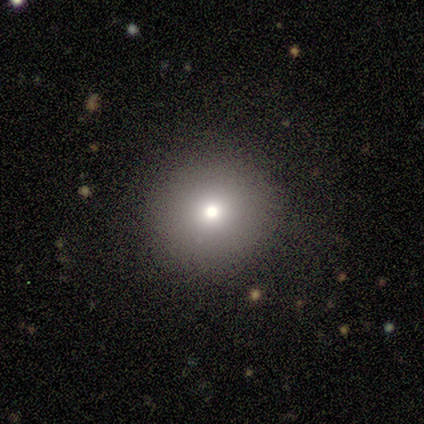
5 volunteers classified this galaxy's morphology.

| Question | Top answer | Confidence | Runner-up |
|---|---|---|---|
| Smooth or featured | smooth | 80% | featured or disk (20%) |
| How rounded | round | 100% | — |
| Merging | none | 100% | — |